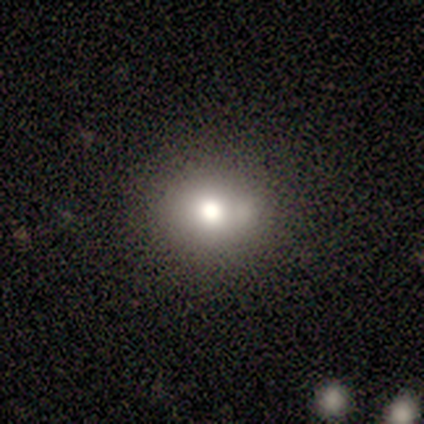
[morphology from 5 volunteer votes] Smooth or featured?
  - smooth: 80% *
  - featured or disk: 20%
  - star or artifact: 0%
How rounded?
  - round: 75% *
  - in between: 25%
  - cigar-shaped: 0%
Merging?
  - none: 60% *
  - minor disturbance: 40%
  - major disturbance: 0%
  - merger: 0%